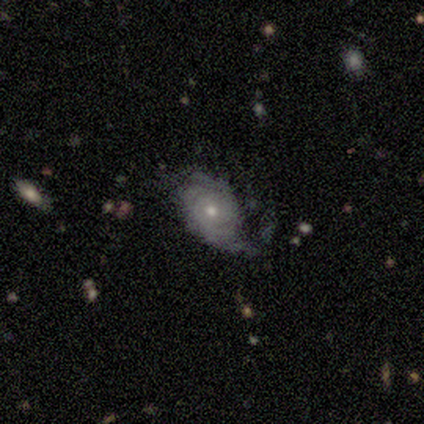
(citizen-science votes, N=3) Smooth or featured? smooth (67%)
How rounded? in between (100%)
Merging? minor disturbance (67%)